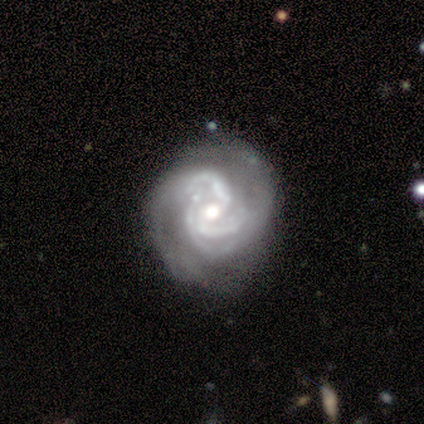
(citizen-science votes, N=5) Smooth or featured? featured or disk (100%)
Edge-on disk? no (100%)
Bar? no (80%)
Spiral arms? yes (100%)
Spiral winding? tight (60%)
Spiral arm count? 3 (80%)
Bulge size? moderate (80%)
Merging? none (60%)